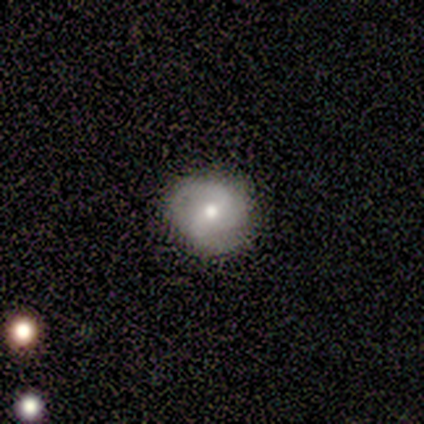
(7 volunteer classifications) Q: Smooth or featured?
A: featured or disk (71%); runner-up: smooth (29%)
Q: Edge-on disk?
A: no (100%)
Q: Bar?
A: strong (60%); runner-up: weak (40%)
Q: Spiral arms?
A: yes (100%)
Q: Spiral winding?
A: loose (60%); runner-up: medium (40%)
Q: Spiral arm count?
A: 2 (100%)
Q: Bulge size?
A: moderate (60%); runner-up: small (40%)
Q: Merging?
A: none (100%)